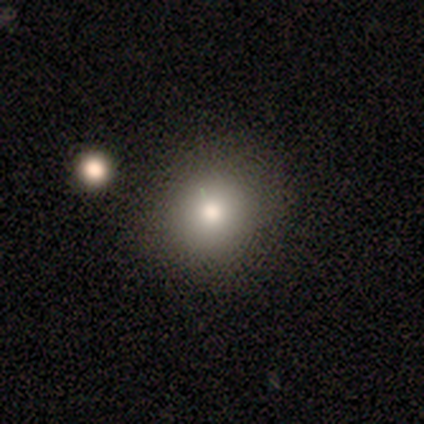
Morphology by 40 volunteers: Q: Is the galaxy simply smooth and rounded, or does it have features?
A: smooth — 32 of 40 (80%).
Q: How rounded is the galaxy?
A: round — 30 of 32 (94%).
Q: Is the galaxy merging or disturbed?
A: none — 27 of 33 (82%).